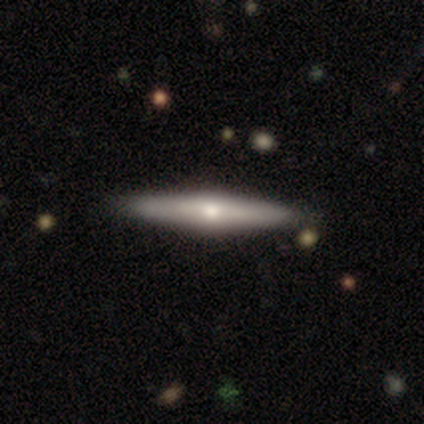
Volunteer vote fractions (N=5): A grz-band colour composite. It shows a featured or disk galaxy (60%) viewed edge-on (100%) with a rounded central bulge (100%). Merging: none (100%).